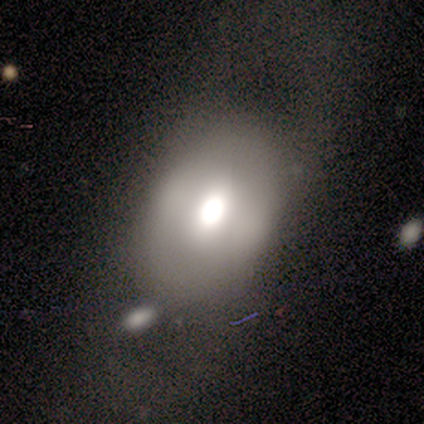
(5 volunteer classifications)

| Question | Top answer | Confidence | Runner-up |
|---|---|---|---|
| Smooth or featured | smooth | 80% | featured or disk (20%) |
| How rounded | round | 50% | tied: in between (50%) |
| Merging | none | 40% | tied: minor disturbance (40%) |